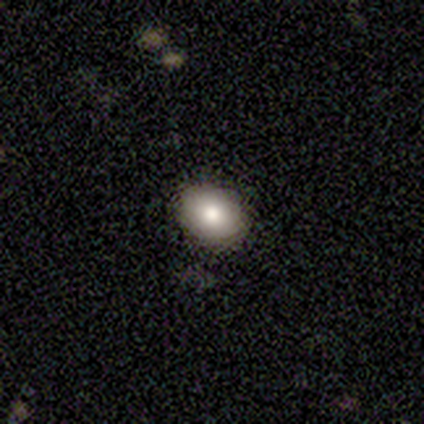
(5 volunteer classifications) A smooth galaxy with no disk features (80%) that is in between round and cigar-shaped (100%). Merging: none (80%).